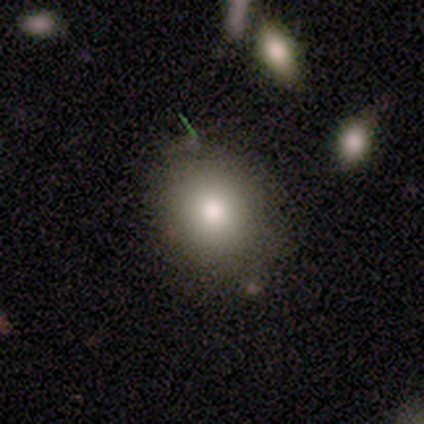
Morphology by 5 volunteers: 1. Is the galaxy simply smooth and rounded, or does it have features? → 80% smooth, 20% featured or disk, 0% star or artifact.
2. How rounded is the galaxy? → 75% in between, 25% round, 0% cigar-shaped.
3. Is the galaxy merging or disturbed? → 60% none, 20% minor disturbance, 20% merger, 0% major disturbance.